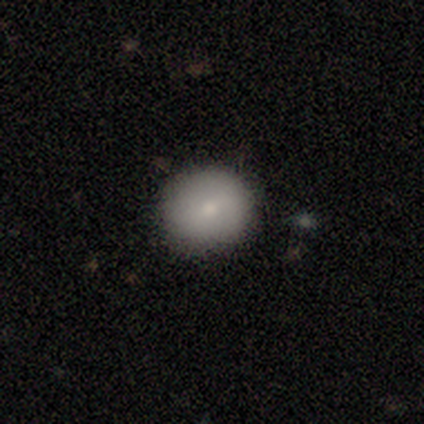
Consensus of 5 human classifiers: smooth-or-featured: smooth: 80% | featured or disk: 20% | star or artifact: 0%
  how-rounded: round: 100% | in between: 0% | cigar-shaped: 0%
  merging: none: 80% | minor disturbance: 20% | major disturbance: 0% | merger: 0%